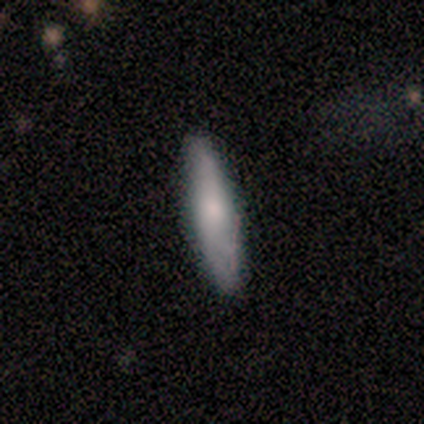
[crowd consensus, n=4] Volunteers were most divided on "edge-on bulge" (2-way tie): boxy: 50%, rounded: 50%, none: 0%. More confident: smooth or featured — featured or disk (75%); merging — none (75%); edge-on disk — yes (67%).